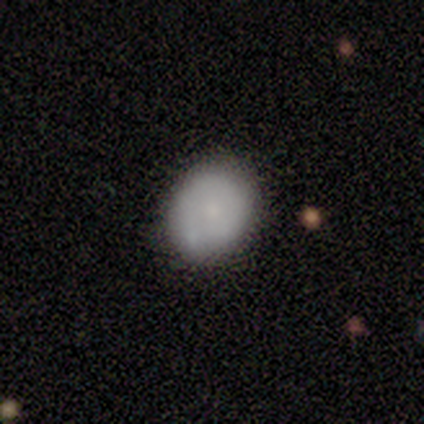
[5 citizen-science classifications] This is clearly a smooth galaxy (80%). How rounded: likely round (75%). Merging: clearly none (100%).